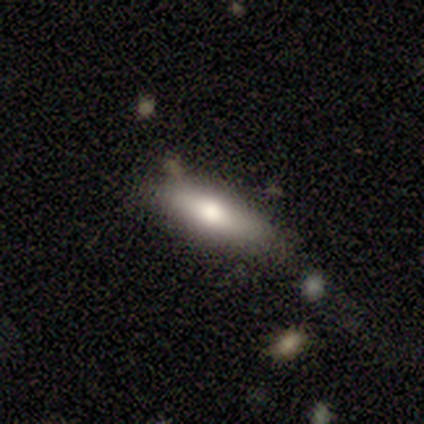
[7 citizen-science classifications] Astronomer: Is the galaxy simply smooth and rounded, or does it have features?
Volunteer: smooth — 86%.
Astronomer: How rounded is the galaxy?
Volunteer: in between — 50%, tied with cigar-shaped at 50%.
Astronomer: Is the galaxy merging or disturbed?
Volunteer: none — 67%.